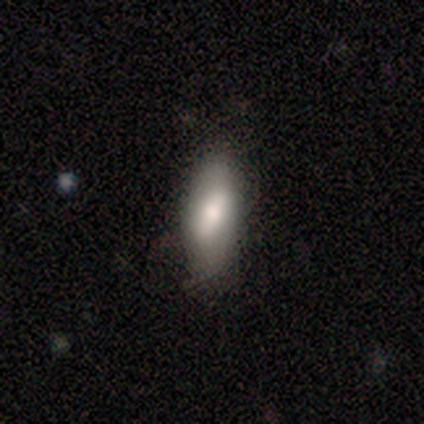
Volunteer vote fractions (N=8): Morphology: type=smooth (75%); roundness=in between (67%); merging=none (88%).